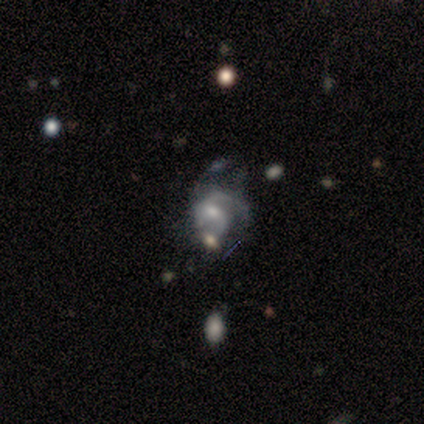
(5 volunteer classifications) This appears to be a featured or disk galaxy (80%) with no bar (100%), medium (67%) spiral arms (75%) and a moderate central bulge (50%, tied with small). Merging: minor disturbance (60%).